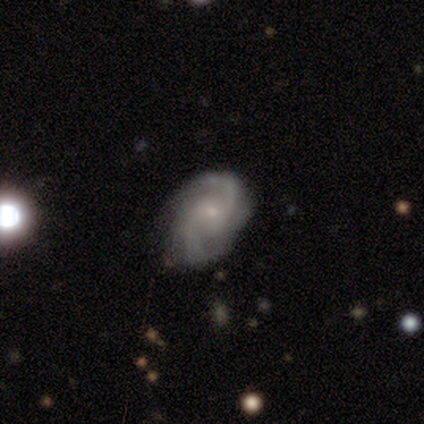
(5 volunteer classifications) This appears to be a smooth galaxy with no disk features (40%, tied with featured or disk) that is in between round and cigar-shaped (100%). Merging: none (75%).